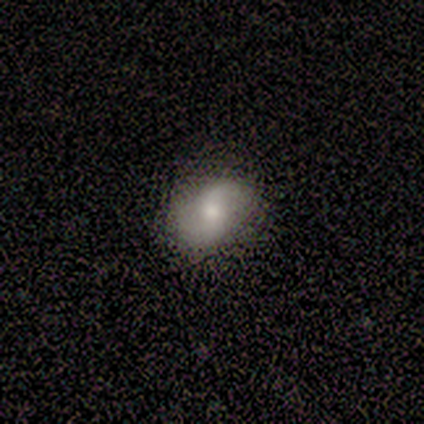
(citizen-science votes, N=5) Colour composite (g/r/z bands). It shows a featured or disk galaxy (60%) with no bar (100%), 2 (100%) loose (100%) spiral arms (100%) and a moderate central bulge (100%). Merging: none (75%).